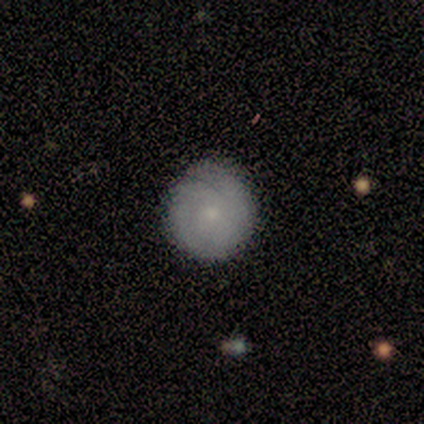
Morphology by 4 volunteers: smooth 50% (tied), featured or disk 50% (tied), star or artifact 0%. Down the decision tree: how rounded — round (100%); merging — none (75%).